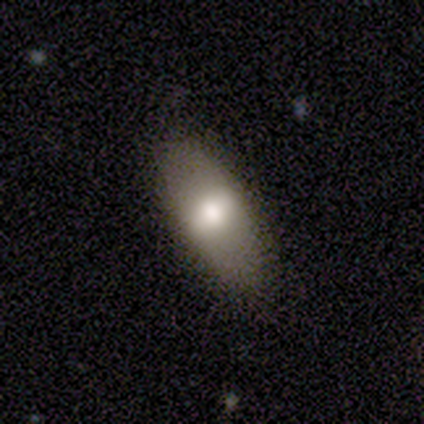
smooth 68%, featured or disk 22%, star or artifact 10%. Down the decision tree: how rounded — in between (85%); merging — none (86%).